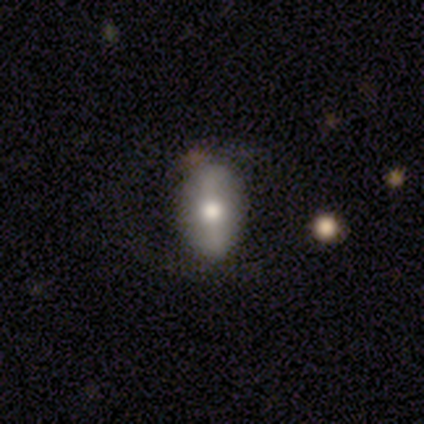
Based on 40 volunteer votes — Smooth or featured?
  - smooth: 55% *
  - featured or disk: 40%
  - star or artifact: 5%
How rounded?
  - in between: 91% *
  - round: 9%
  - cigar-shaped: 0%
Merging?
  - none: 74% *
  - minor disturbance: 13%
  - major disturbance: 13%
  - merger: 0%